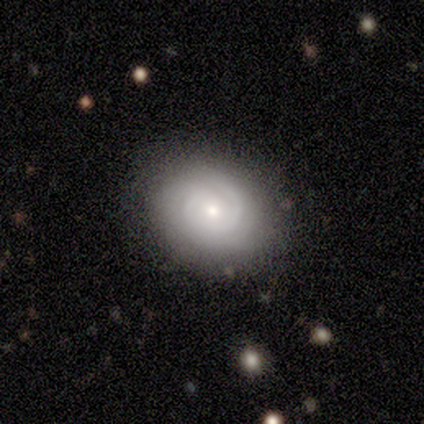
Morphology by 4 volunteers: Smooth or featured? 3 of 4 (75%) said featured or disk. Edge-on disk? 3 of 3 (100%) said no. Bar? 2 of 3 (67%) said weak. Spiral arms? 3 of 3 (100%) said yes. Spiral winding? 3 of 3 (100%) said tight. Spiral arm count? 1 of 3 (33%, tied with 4 and more than 4) said 1. Bulge size? 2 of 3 (67%) said small. Merging? 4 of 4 (100%) said none.